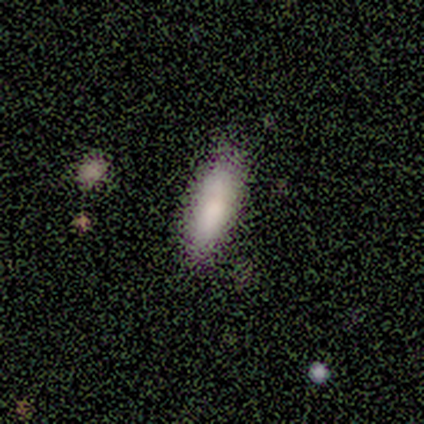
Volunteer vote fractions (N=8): Smooth or featured? smooth (100%)
How rounded? in between (50%, tied with cigar-shaped)
Merging? none (50%, tied with minor disturbance)